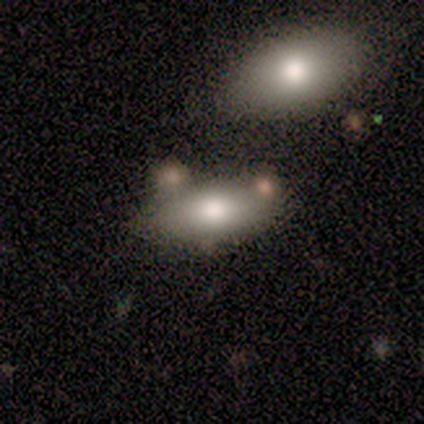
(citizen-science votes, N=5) smooth 100%, featured or disk 0%, star or artifact 0%. Down the decision tree: how rounded — in between (100%); merging — none (80%).